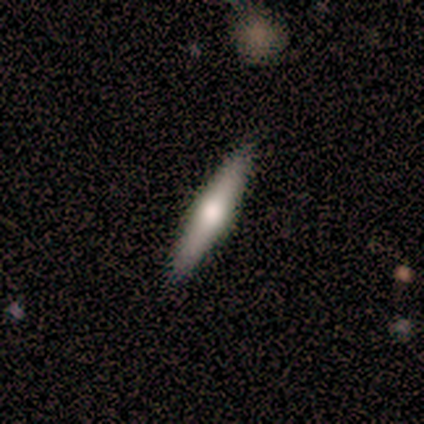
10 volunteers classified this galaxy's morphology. This is likely a featured or disk galaxy (60%). It is clearly viewed edge-on (83%). Edge-on bulge: clearly rounded (100%). Merging: clearly none (100%).